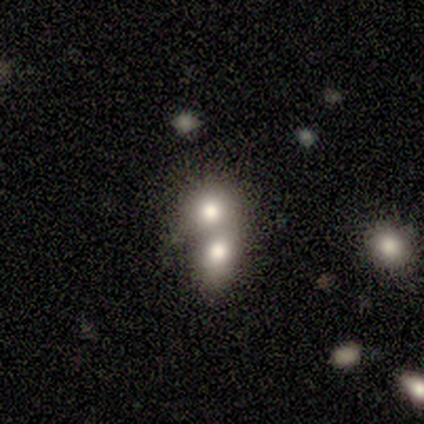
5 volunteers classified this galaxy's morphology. A smooth galaxy with no disk features (60%) that is in between round and cigar-shaped (67%).

Vote fractions:
- Smooth or featured? smooth: 60% / featured or disk: 20% / star or artifact: 20%
- How rounded? in between: 67% / round: 33% / cigar-shaped: 0%
- Merging? merger: 75% / none: 25% / minor disturbance: 0% / major disturbance: 0%